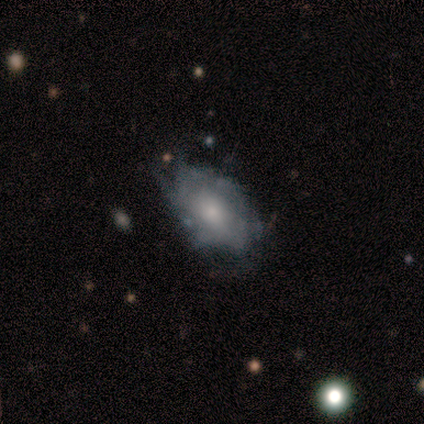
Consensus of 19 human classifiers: A featured or disk galaxy (47%) with no bar (88%), 2 (50%, tied with can't tell) tight (50%) spiral arms (50%, tied with no) and a moderate central bulge (50%, tied with small).

Vote fractions:
- Smooth or featured? featured or disk: 47% / smooth: 42% / star or artifact: 11%
- Edge-on disk? no: 89% / yes: 11%
- Bar? no: 88% / weak: 12% / strong: 0%
- Spiral arms? yes: 50% (tied) / no: 50% (tied)
- Spiral winding? tight: 50% / medium: 25% / loose: 25%
- Spiral arm count? 2: 50% (tied) / can't tell: 50% (tied) / 1: 0% / 3: 0% / 4: 0% / more than 4: 0%
- Bulge size? moderate: 50% (tied) / small: 50% (tied) / dominant: 0% / large: 0% / none: 0%
- Merging? none: 47% / major disturbance: 29% / minor disturbance: 24% / merger: 0%